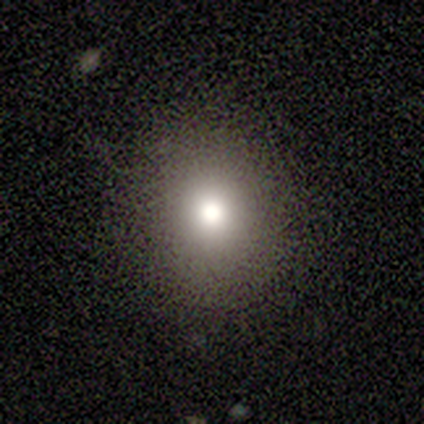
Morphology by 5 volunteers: This is likely a smooth galaxy (60%). How rounded: likely round (67%). Merging: clearly none (100%).